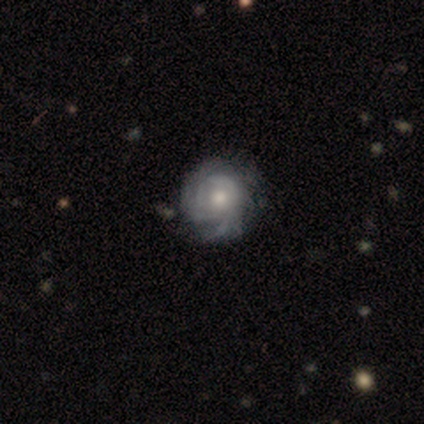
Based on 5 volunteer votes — This is clearly a featured or disk galaxy (100%). It is clearly not viewed edge-on (100%). Bar: clearly no (80%). Spiral arm pattern: clearly yes (80%). Spiral arm count: likely can't tell (75%). Spiral winding: likely tight (75%). Central bulge: clearly moderate (80%). Merging: likely none (60%).